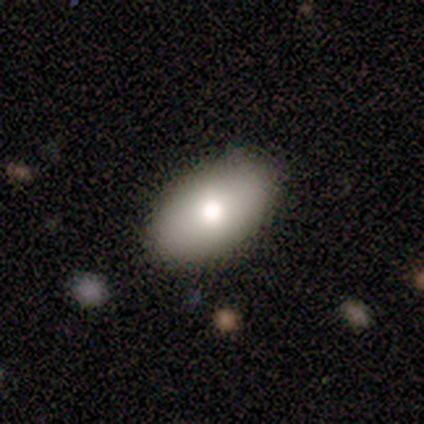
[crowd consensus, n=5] This is clearly a smooth galaxy (80%). How rounded: clearly in between (100%). Merging: clearly none (100%).